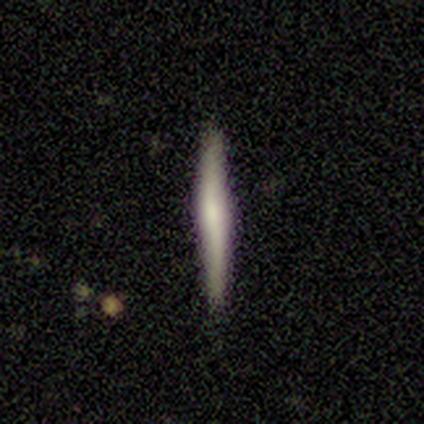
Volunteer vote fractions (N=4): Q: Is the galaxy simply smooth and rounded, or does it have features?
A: smooth — 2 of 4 (50%, tied with featured or disk).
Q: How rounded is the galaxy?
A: cigar-shaped — 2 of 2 (100%).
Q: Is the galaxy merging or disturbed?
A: none — 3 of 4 (75%).